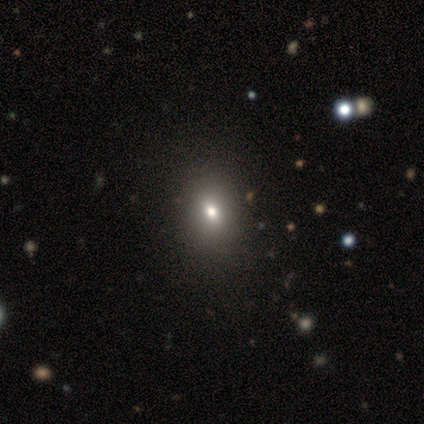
Q: Smooth or featured?
A: smooth (75%); runner-up: star or artifact (25%)
Q: How rounded?
A: in between (100%)
Q: Merging?
A: none (67%); runner-up: minor disturbance (33%)